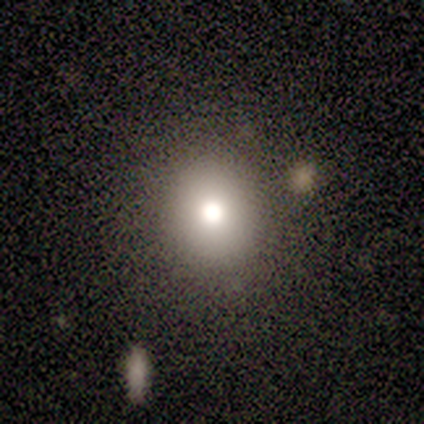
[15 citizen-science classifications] Smooth or featured?
  - smooth: 87% *
  - featured or disk: 13%
  - star or artifact: 0%
How rounded?
  - round: 92% *
  - in between: 8%
  - cigar-shaped: 0%
Merging?
  - none: 100% *
  - minor disturbance: 0%
  - major disturbance: 0%
  - merger: 0%